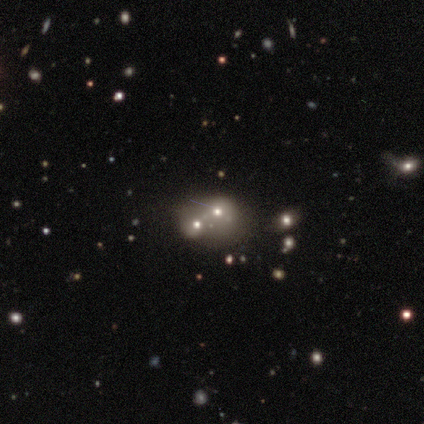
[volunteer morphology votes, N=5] Smooth or featured? smooth (100%)
How rounded? round (100%)
Merging? merger (60%)